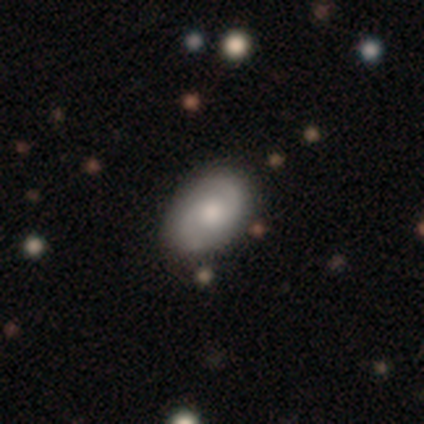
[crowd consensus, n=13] Smooth or featured? 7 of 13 (54%) said featured or disk. Edge-on disk? 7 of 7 (100%) said no. Bar? 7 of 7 (100%) said no. Spiral arms? 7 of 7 (100%) said yes. Spiral winding? 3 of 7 (43%) said loose. Spiral arm count? 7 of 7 (100%) said 2. Bulge size? 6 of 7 (86%) said moderate. Merging? 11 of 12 (92%) said none.